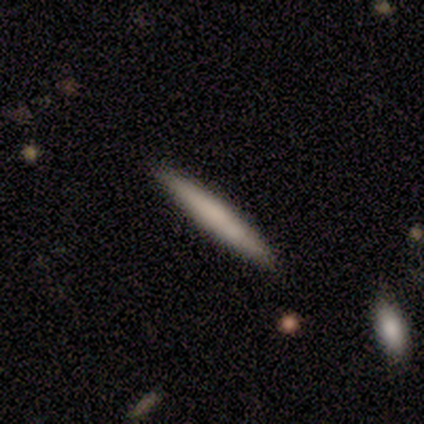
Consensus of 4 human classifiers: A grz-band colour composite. It shows a smooth galaxy with no disk features (100%) that is cigar-shaped (100%). Merging: none (75%).